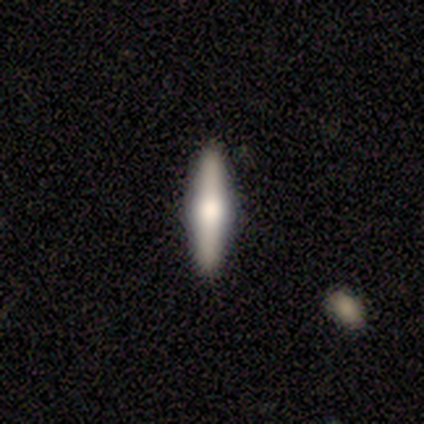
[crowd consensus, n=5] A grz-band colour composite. It shows a featured or disk galaxy (80%) viewed edge-on (100%) with a rounded central bulge (100%). Merging: none (100%).